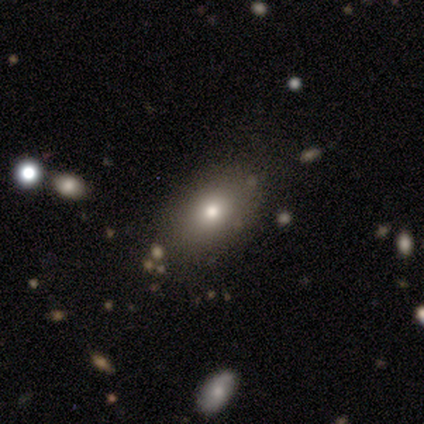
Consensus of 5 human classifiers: This appears to be a smooth galaxy with no disk features (100%) that is in between round and cigar-shaped (100%). Merging: none (80%).